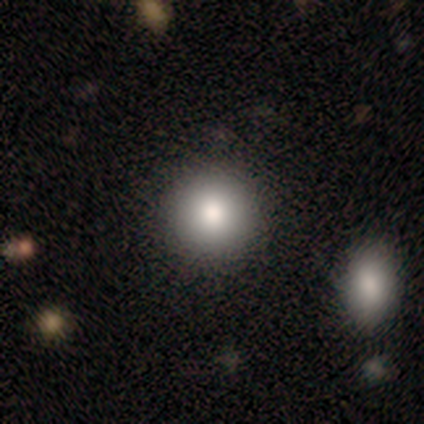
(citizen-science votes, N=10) Smooth or featured?
  - smooth: 70% *
  - featured or disk: 20%
  - star or artifact: 10%
How rounded?
  - round: 71% *
  - in between: 14%
  - cigar-shaped: 14%
Merging?
  - none: 67% *
  - minor disturbance: 33%
  - major disturbance: 0%
  - merger: 0%